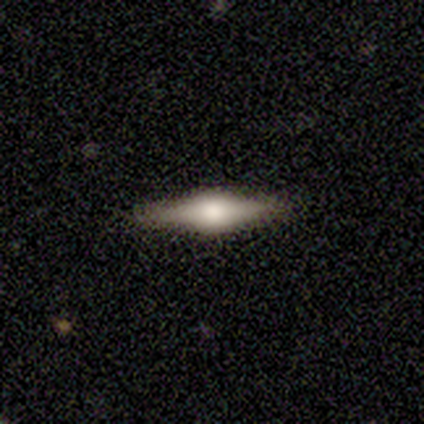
Smooth or featured: smooth — 60% (featured or disk — 40%)
How rounded: cigar-shaped — 67% (in between — 33%)
Merging: none — 100%